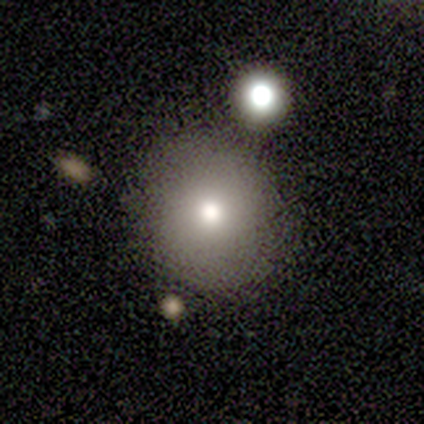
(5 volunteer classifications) Morphology: type=smooth (80%); roundness=round (50%, tied with in between); merging=none (100%).